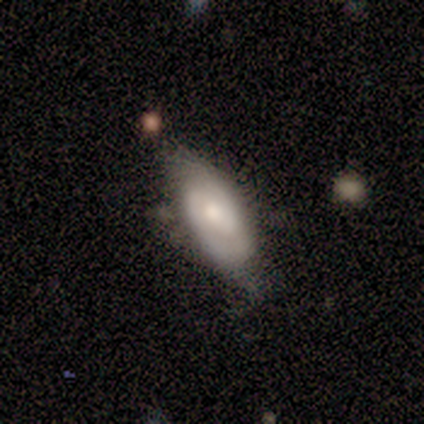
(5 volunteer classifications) Q: Smooth or featured?
A: smooth (40%); tied with: featured or disk (40%)
Q: How rounded?
A: in between (100%)
Q: Merging?
A: none (75%); runner-up: minor disturbance (25%)